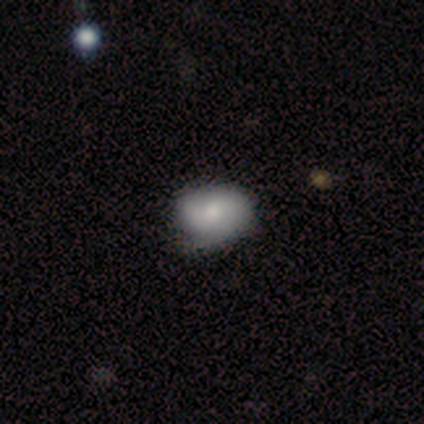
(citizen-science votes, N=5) Volunteers were most divided on "smooth or featured": smooth: 60%, featured or disk: 40%, star or artifact: 0%. More confident: merging — none (80%); how rounded — in between (67%).